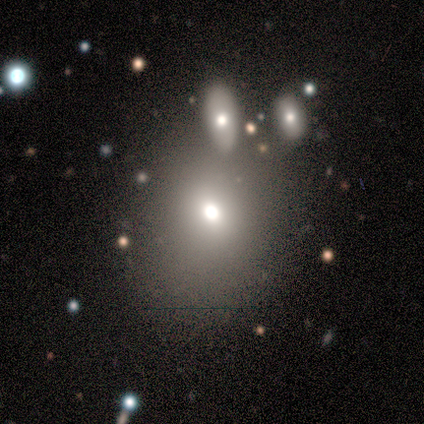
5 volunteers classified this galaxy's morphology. smooth 80%, star or artifact 20%, featured or disk 0%. Down the decision tree: how rounded — round (50%, tied with in between); merging — none (75%).